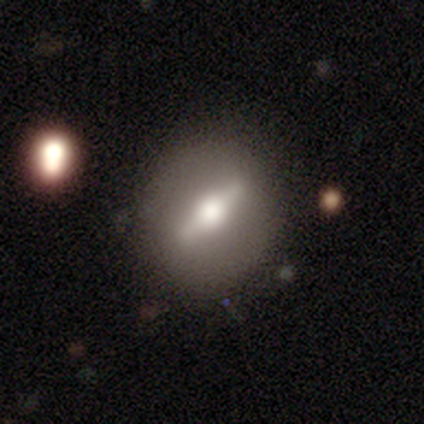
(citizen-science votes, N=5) A featured or disk galaxy (60%) viewed edge-on (67%) with a rounded central bulge (100%). Merging: none (67%).